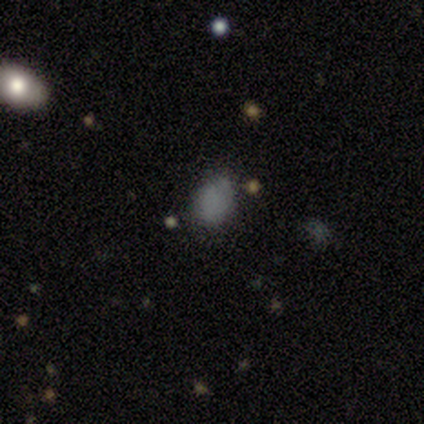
Q: Smooth or featured?
A: smooth (100%)
Q: How rounded?
A: in between (60%); runner-up: round (40%)
Q: Merging?
A: none (60%); runner-up: minor disturbance (20%)